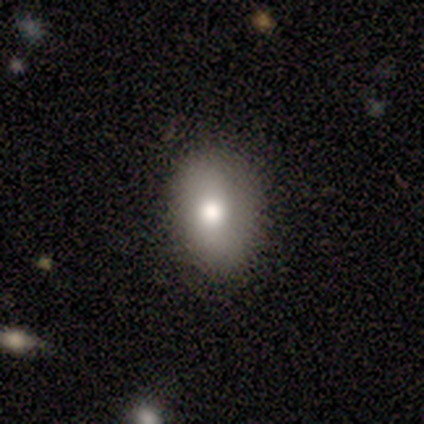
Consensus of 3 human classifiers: Smooth or featured: smooth — 100%
How rounded: in between — 100%
Merging: none — 100%